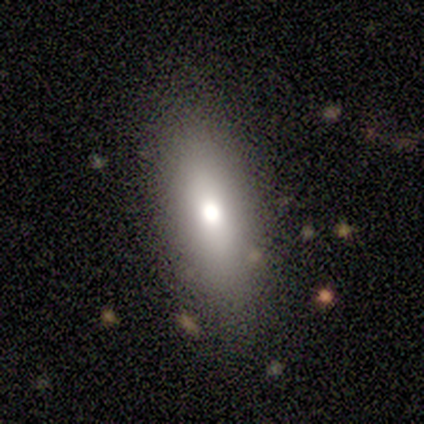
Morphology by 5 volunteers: smooth_or_featured: smooth (p=1.00)
how_rounded: in between (p=1.00)
merging: none (p=0.80) [alt: minor disturbance p=0.20]